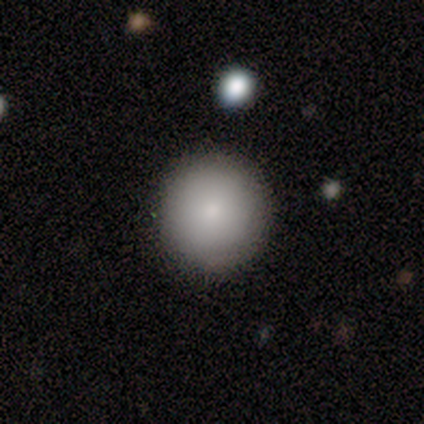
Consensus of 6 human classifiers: Morphology: type=smooth (83%); roundness=round (100%); merging=none (100%).